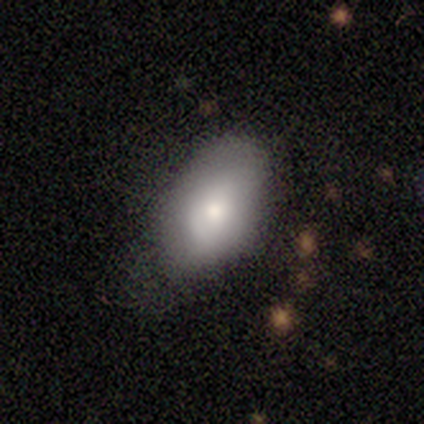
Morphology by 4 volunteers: smooth 75%, featured or disk 25%, star or artifact 0%. Down the decision tree: how rounded — in between (100%); merging — minor disturbance (75%).